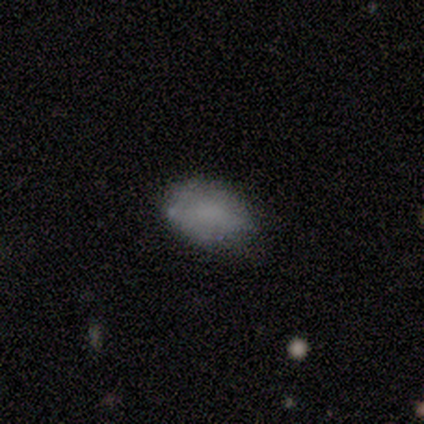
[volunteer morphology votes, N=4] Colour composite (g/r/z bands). It shows a smooth galaxy with no disk features (50%) that is in between round and cigar-shaped (100%). Merging: minor disturbance (67%).